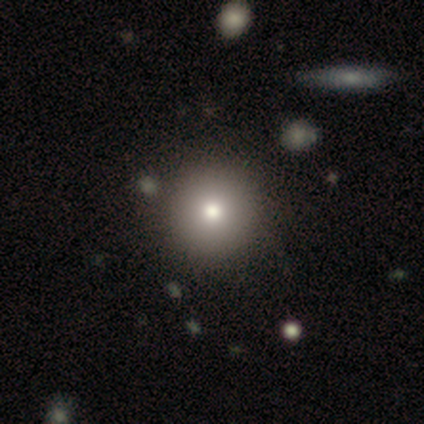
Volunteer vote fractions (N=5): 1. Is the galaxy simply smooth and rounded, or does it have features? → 40% smooth (tied), 40% featured or disk (tied), 20% star or artifact.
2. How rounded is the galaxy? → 50% round (tied), 50% in between (tied), 0% cigar-shaped.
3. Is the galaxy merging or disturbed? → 75% none, 25% minor disturbance, 0% major disturbance, 0% merger.